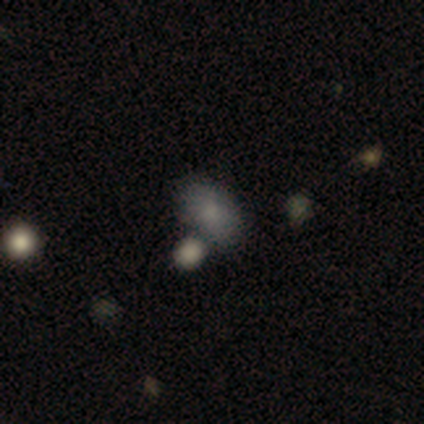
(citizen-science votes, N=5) smooth_or_featured: smooth (p=0.80) [alt: featured or disk p=0.20]
how_rounded: in between (p=1.00)
merging: none (p=0.40) [tied with: merger p=0.40]